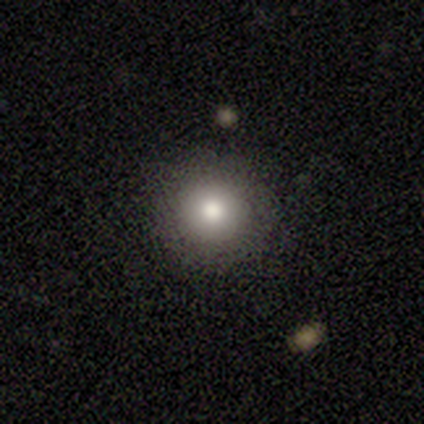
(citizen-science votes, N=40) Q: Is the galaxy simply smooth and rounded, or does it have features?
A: smooth — 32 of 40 (80%).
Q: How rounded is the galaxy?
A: round — 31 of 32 (97%).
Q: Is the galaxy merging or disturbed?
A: none — 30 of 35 (86%).